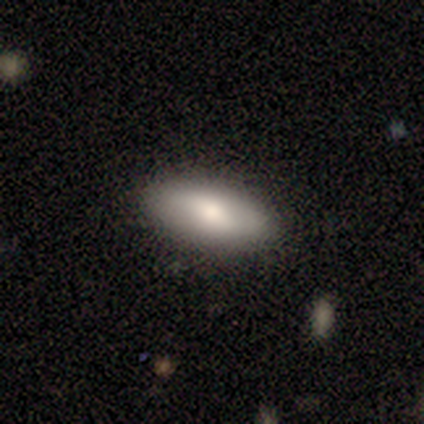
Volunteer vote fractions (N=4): A smooth galaxy with no disk features (100%) that is in between round and cigar-shaped (75%).

Vote fractions:
- Smooth or featured? smooth: 100% / featured or disk: 0% / star or artifact: 0%
- How rounded? in between: 75% / cigar-shaped: 25% / round: 0%
- Merging? none: 100% / minor disturbance: 0% / major disturbance: 0% / merger: 0%